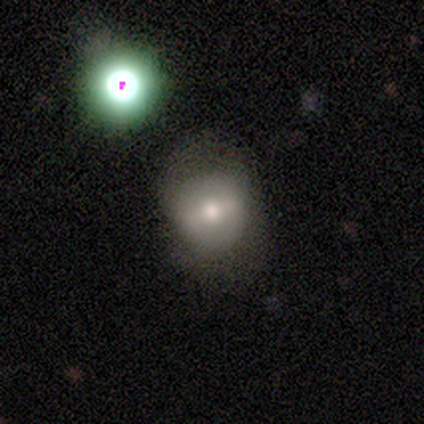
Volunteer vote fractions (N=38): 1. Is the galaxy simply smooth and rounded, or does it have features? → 45% smooth, 29% featured or disk, 26% star or artifact.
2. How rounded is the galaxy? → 71% round, 29% in between, 0% cigar-shaped.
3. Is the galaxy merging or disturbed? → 68% none, 14% minor disturbance, 14% major disturbance, 4% merger.